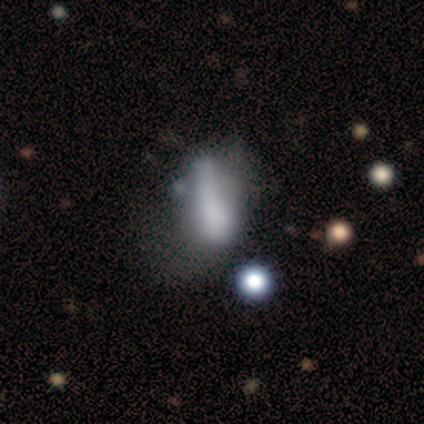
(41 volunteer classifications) Morphology: type=smooth (54%); roundness=in between (68%); merging=none (32%, tied with major disturbance).